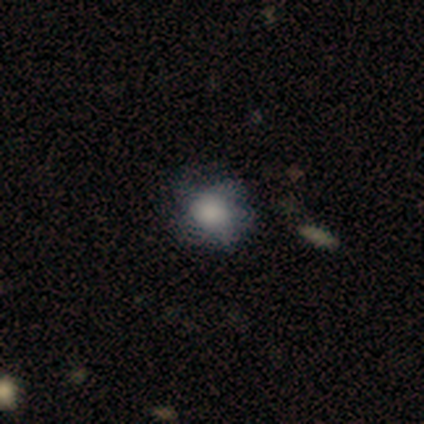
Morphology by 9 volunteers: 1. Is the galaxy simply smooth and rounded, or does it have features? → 89% smooth, 11% featured or disk, 0% star or artifact.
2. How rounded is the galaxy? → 62% round, 38% in between, 0% cigar-shaped.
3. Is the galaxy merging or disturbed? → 67% none, 33% minor disturbance, 0% major disturbance, 0% merger.